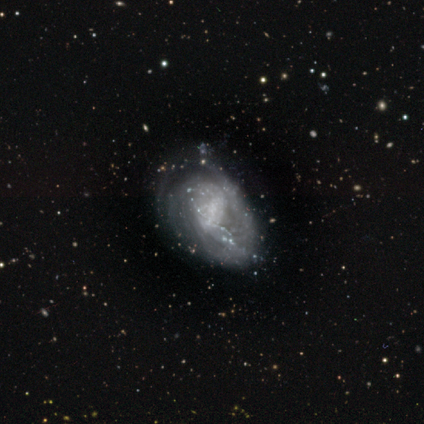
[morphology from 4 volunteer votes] This appears to be a featured or disk galaxy (75%) with a strong bar (33%, tied with weak and no), 2 (50%, tied with 4) tight (100%) spiral arms (67%) and a moderate central bulge (67%). Merging: none (50%, tied with minor disturbance).